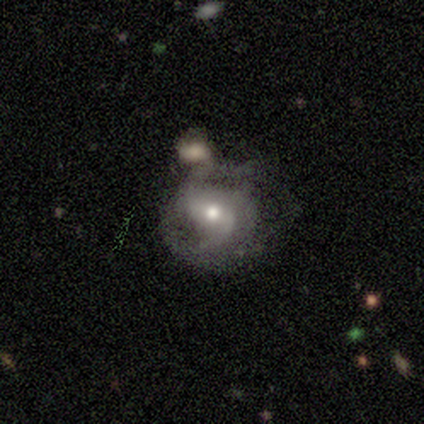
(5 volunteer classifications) This appears to be a featured or disk galaxy (80%) with a strong bar (50%), 2 (50%, tied with 3) medium (100%) spiral arms (50%, tied with no) and a moderate central bulge (50%). Merging: none (50%, tied with minor disturbance).